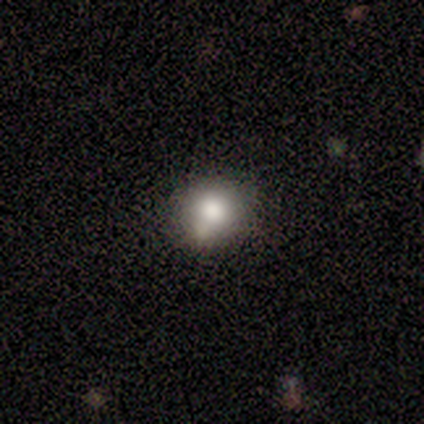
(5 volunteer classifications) This appears to be a smooth galaxy with no disk features (80%) that is round (100%). Merging: none (60%).